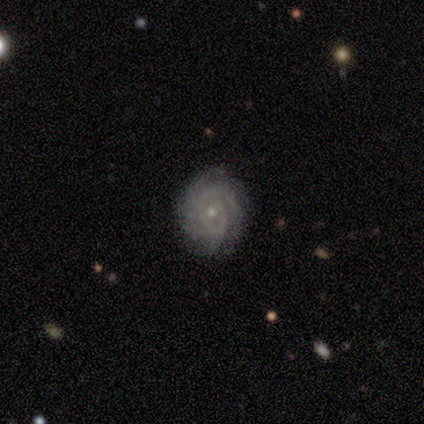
A featured or disk galaxy (89%) with no bar (76%), tight (70%) spiral arms (97%) and a small central bulge (76%). Merging: none (89%).